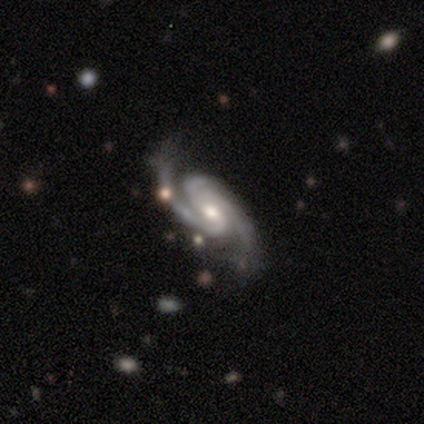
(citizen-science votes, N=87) Overall: featured or disk (97%). Edge-on disk: no (96%). Bar: weak (42%; no 40%). Spiral arms: yes (99%). Spiral arm count: 2 (79%). Spiral winding: medium (49%; tight 39%). Bulge size: moderate (63%; small 35%). Merging: none (78%).